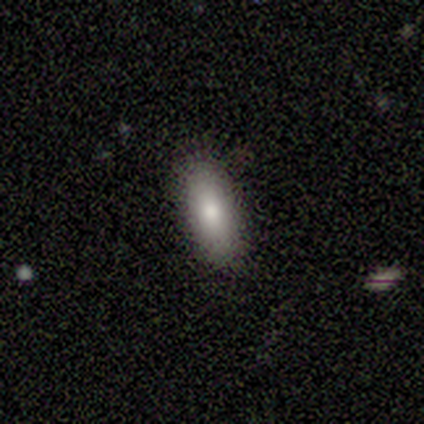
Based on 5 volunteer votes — smooth_or_featured: smooth (p=0.80) [alt: featured or disk p=0.20]
how_rounded: in between (p=0.75) [alt: cigar-shaped p=0.25]
merging: none (p=1.00)